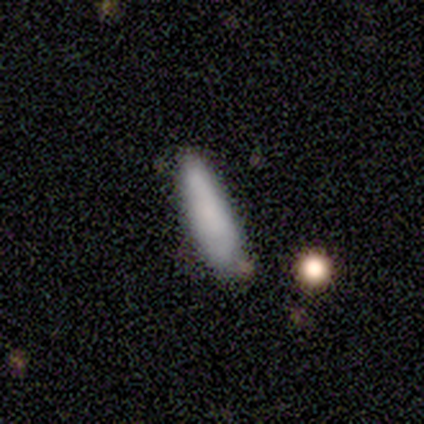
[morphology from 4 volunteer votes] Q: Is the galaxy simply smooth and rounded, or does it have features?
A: smooth — 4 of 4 (100%).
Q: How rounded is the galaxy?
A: cigar-shaped — 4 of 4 (100%).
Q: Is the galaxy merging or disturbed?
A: none — 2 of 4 (50%, tied with minor disturbance).